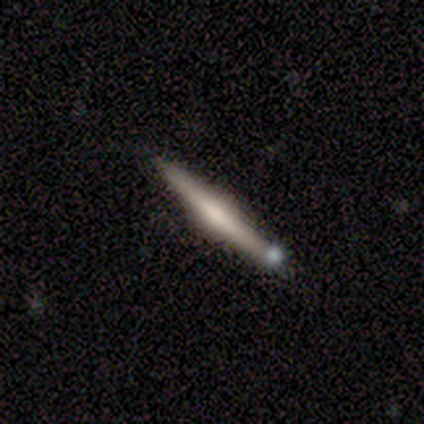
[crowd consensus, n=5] smooth_or_featured: featured or disk (p=0.60) [alt: smooth p=0.20]
disk_edge_on: yes (p=0.67) [alt: no p=0.33]
edge_on_bulge: rounded (p=1.00)
merging: none (p=1.00)